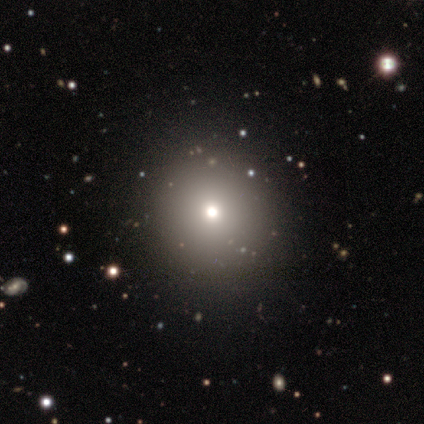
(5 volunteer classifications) This is marginally a smooth galaxy (40%, tied with star or artifact). How rounded: possibly round (50%, tied with in between). Merging: clearly none (100%).